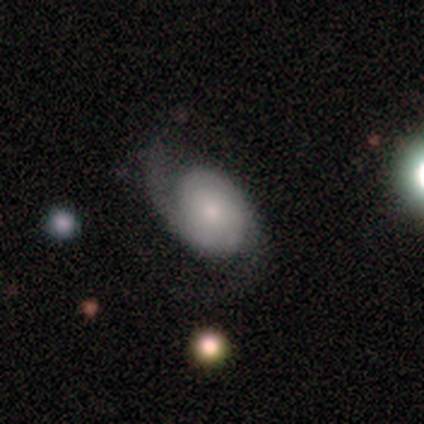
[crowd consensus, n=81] Q: Smooth or featured?
A: featured or disk (68%); runner-up: smooth (30%)
Q: Edge-on disk?
A: no (98%); runner-up: yes (2%)
Q: Bar?
A: no (76%); runner-up: weak (19%)
Q: Spiral arms?
A: yes (100%)
Q: Spiral winding?
A: tight (33%); tied with: medium (33%); loose (33%)
Q: Spiral arm count?
A: 2 (81%); runner-up: 1 (9%)
Q: Bulge size?
A: small (52%); runner-up: moderate (30%)
Q: Merging?
A: none (58%); runner-up: major disturbance (22%)